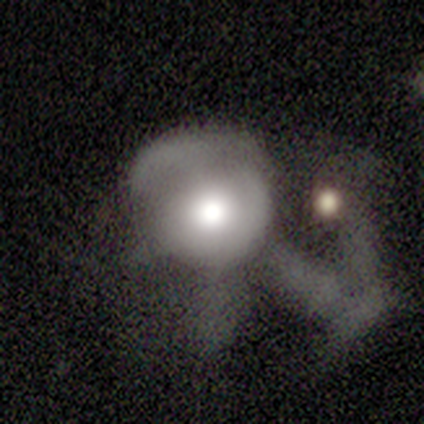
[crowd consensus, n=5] smooth-or-featured: smooth: 100% | featured or disk: 0% | star or artifact: 0%
  how-rounded: round: 100% | in between: 0% | cigar-shaped: 0%
  merging: minor disturbance: 40% | none: 20% | major disturbance: 20% | merger: 20%